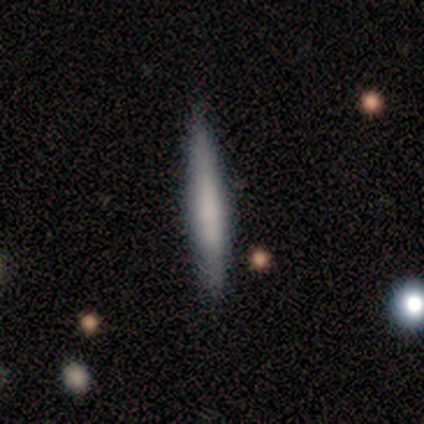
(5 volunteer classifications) This appears to be a smooth galaxy with no disk features (80%) that is cigar-shaped (100%). Merging: none (60%).